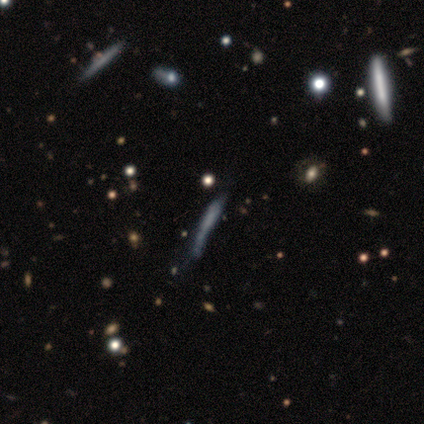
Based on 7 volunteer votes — Smooth or featured?
  - featured or disk: 43% *
  - smooth: 29%
  - star or artifact: 29%
Edge-on disk?
  - yes: 67% *
  - no: 33%
Edge-on bulge?
  - none: 100% *
  - boxy: 0%
  - rounded: 0%
Merging?
  - none: 60% *
  - minor disturbance: 40%
  - major disturbance: 0%
  - merger: 0%